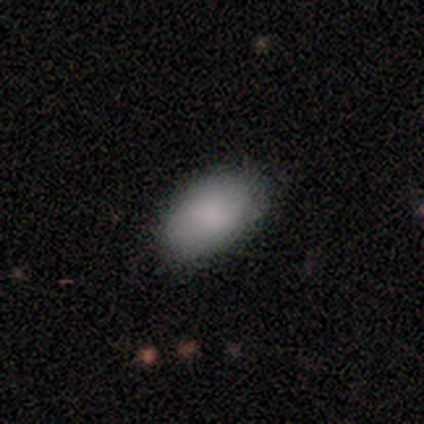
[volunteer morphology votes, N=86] Smooth or featured: smooth — 81% (featured or disk — 9%)
How rounded: in between — 93% (round — 6%)
Merging: none — 81% (minor disturbance — 12%)